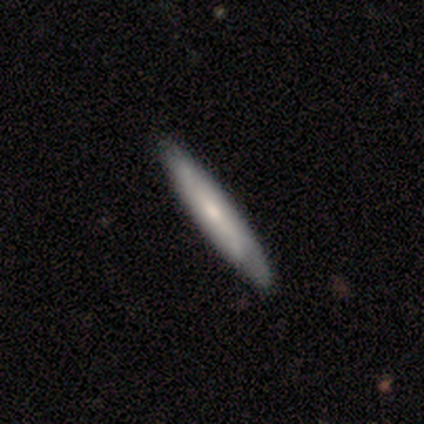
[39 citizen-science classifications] A smooth galaxy with no disk features (54%) that is cigar-shaped (100%).

Vote fractions:
- Smooth or featured? smooth: 54% / featured or disk: 36% / star or artifact: 10%
- How rounded? cigar-shaped: 100% / round: 0% / in between: 0%
- Merging? none: 86% / minor disturbance: 14% / major disturbance: 0% / merger: 0%